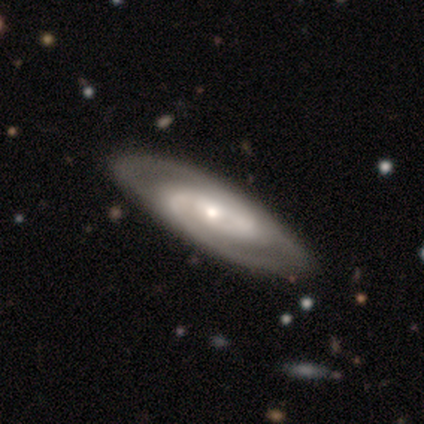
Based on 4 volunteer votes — Smooth or featured? 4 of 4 (100%) said featured or disk. Edge-on disk? 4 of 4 (100%) said no. Bar? 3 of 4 (75%) said no. Spiral arms? 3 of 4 (75%) said yes. Spiral winding? 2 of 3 (67%) said tight. Spiral arm count? 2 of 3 (67%) said 2. Bulge size? 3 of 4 (75%) said small. Merging? 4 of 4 (100%) said none.